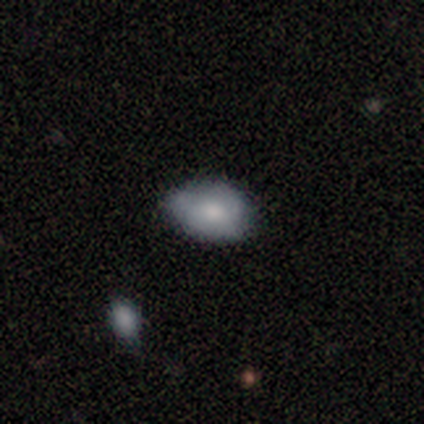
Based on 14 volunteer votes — A smooth galaxy with no disk features (86%) that is in between round and cigar-shaped (100%). Merging: none (62%).